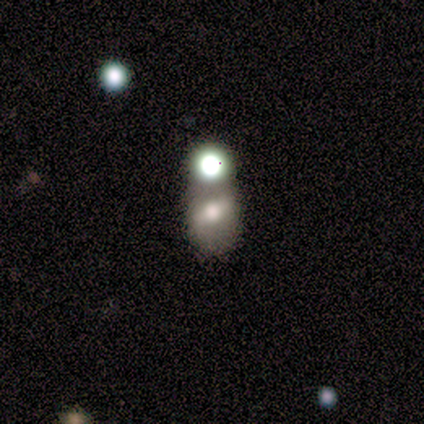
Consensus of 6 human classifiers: smooth-or-featured: featured or disk: 83% | smooth: 17% | star or artifact: 0%
  disk-edge-on: no: 100% | yes: 0%
    bar: strong: 40% (tied) | weak: 40% (tied) | no: 20%
    has-spiral-arms: no: 80% | yes: 20%
    bulge-size: moderate: 40% (tied) | small: 40% (tied) | large: 20% | dominant: 0% | none: 0%
  merging: none: 67% | major disturbance: 17% | merger: 17% | minor disturbance: 0%